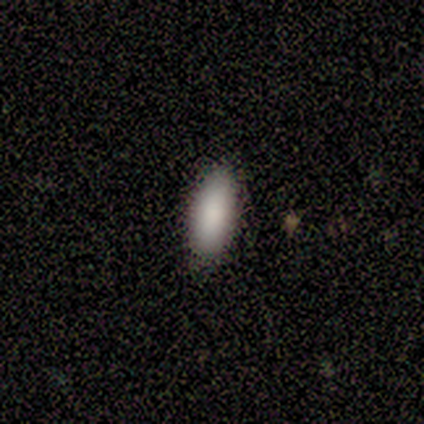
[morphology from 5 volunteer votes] A smooth galaxy with no disk features (80%) that is in between round and cigar-shaped (100%).

Vote fractions:
- Smooth or featured? smooth: 80% / featured or disk: 20% / star or artifact: 0%
- How rounded? in between: 100% / round: 0% / cigar-shaped: 0%
- Merging? none: 80% / minor disturbance: 20% / major disturbance: 0% / merger: 0%